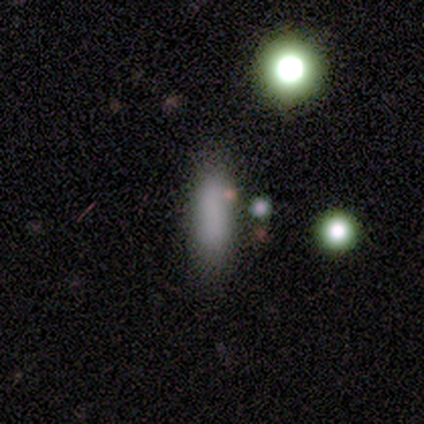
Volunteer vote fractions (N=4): smooth-or-featured: smooth: 50% (tied) | featured or disk: 50% (tied) | star or artifact: 0%
  how-rounded: cigar-shaped: 100% | round: 0% | in between: 0%
  merging: minor disturbance: 75% | none: 25% | major disturbance: 0% | merger: 0%